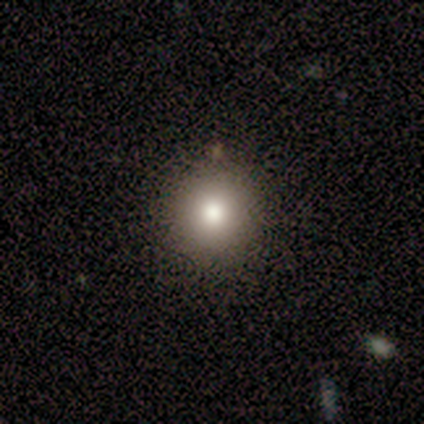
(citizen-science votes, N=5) Overall: smooth (80%). How rounded: round (50%, tied with in between). Merging: none (50%, tied with minor disturbance).